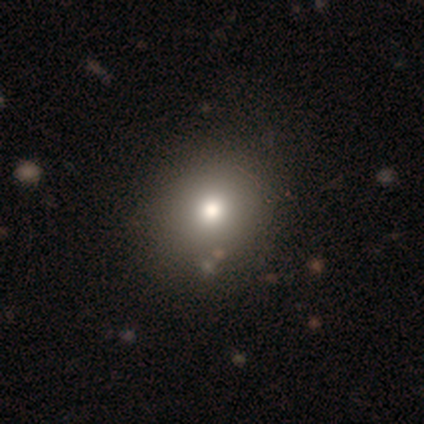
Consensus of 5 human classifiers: A smooth galaxy with no disk features (80%) that is round (75%). Merging: none (75%).